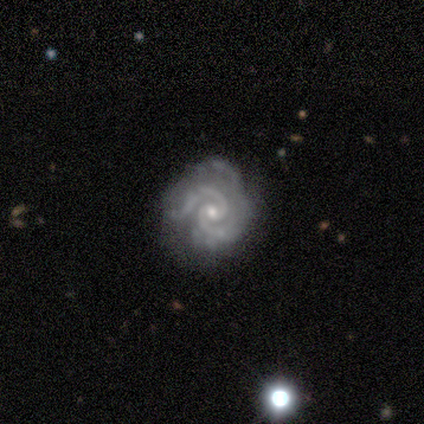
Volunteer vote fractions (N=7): Smooth or featured?
  - featured or disk: 100% *
  - smooth: 0%
  - star or artifact: 0%
Edge-on disk?
  - no: 100% *
  - yes: 0%
Bar?
  - no: 100% *
  - strong: 0%
  - weak: 0%
Spiral arms?
  - yes: 100% *
  - no: 0%
Spiral winding?
  - tight: 57% *
  - medium: 43%
  - loose: 0%
Spiral arm count?
  - 2: 100% *
  - 1: 0%
  - 3: 0%
  - 4: 0%
  - more than 4: 0%
  - can't tell: 0%
Bulge size?
  - small: 57% *
  - moderate: 43%
  - dominant: 0%
  - large: 0%
  - none: 0%
Merging?
  - none: 43% *
  - minor disturbance: 29%
  - major disturbance: 29%
  - merger: 0%